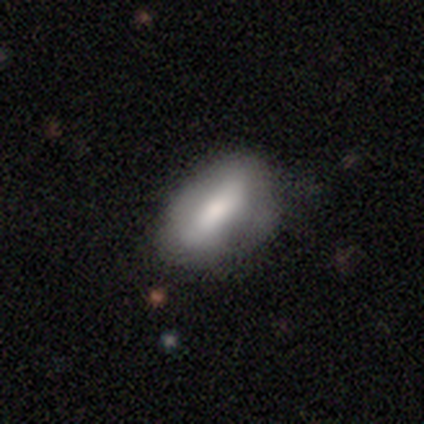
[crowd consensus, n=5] Smooth or featured: featured or disk — 60% (smooth — 40%)
Edge-on disk: no — 67% (yes — 33%)
Bar: strong — 50% (tied with weak — 50%)
Spiral arms: yes — 50% (tied with no — 50%)
Spiral winding: medium — 100%
Spiral arm count: can't tell — 100%
Bulge size: large — 50% (tied with moderate — 50%)
Merging: none — 60% (minor disturbance — 40%)